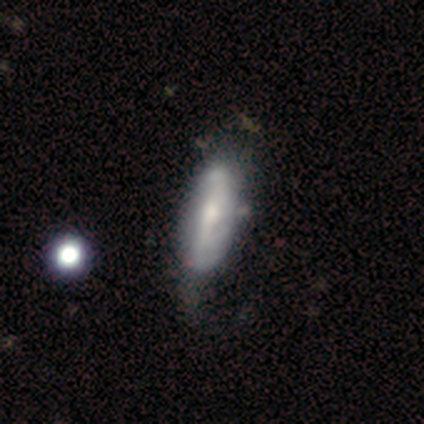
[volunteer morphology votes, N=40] Smooth or featured? 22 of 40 (55%) said featured or disk. Edge-on disk? 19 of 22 (86%) said no. Bar? 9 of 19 (47%) said strong. Spiral arms? 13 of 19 (68%) said yes. Spiral winding? 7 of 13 (54%) said loose. Spiral arm count? 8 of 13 (62%) said 2. Bulge size? 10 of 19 (53%) said moderate. Merging? 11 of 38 (29%) said none.